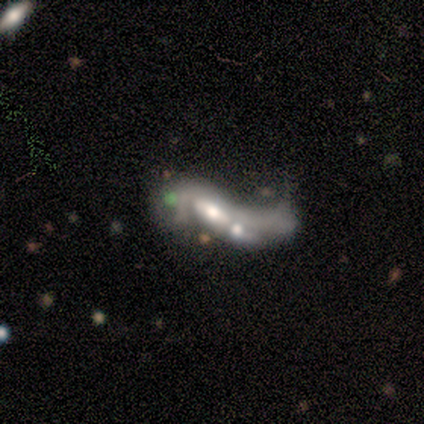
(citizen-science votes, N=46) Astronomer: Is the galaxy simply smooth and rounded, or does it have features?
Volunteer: featured or disk — 83%.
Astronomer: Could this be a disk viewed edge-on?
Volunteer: no — 84%.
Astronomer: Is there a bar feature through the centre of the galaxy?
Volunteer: weak — 47% (runner-up: no, 41%).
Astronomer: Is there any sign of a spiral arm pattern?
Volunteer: yes — 50%, tied with no at 50%.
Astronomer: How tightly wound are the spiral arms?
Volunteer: loose — 88%.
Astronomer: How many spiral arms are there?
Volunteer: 2 — 69%.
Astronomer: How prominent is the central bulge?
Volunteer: moderate — 53%.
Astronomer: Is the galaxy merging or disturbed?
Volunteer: merger — 48% (runner-up: major disturbance, 39%).